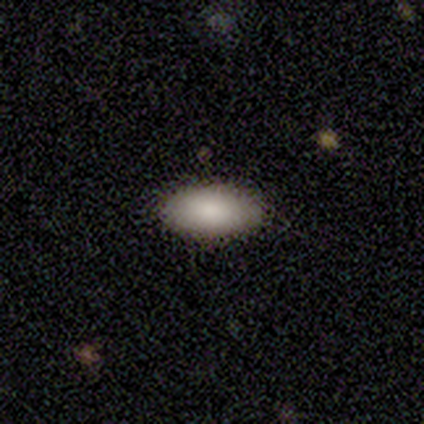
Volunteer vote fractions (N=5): Smooth or featured? 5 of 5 (100%) said smooth. How rounded? 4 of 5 (80%) said in between. Merging? 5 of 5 (100%) said none.